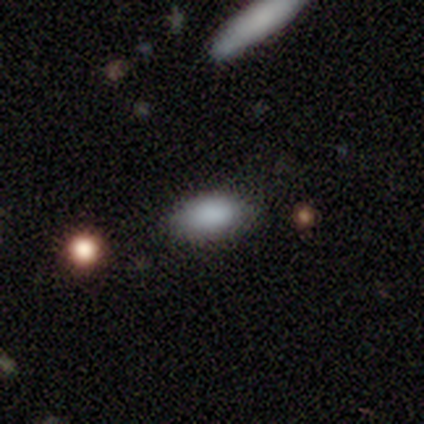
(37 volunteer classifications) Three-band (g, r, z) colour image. It shows a smooth galaxy with no disk features (84%) that is in between round and cigar-shaped (94%). Merging: none (82%).